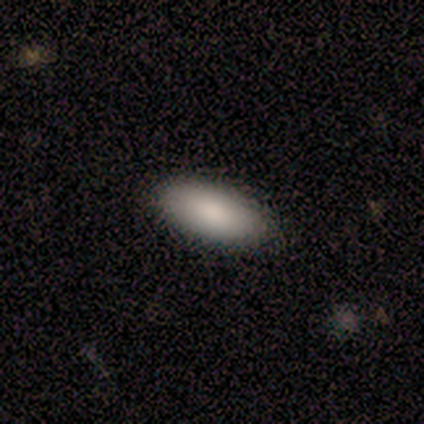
smooth-or-featured: smooth: 100% | featured or disk: 0% | star or artifact: 0%
  how-rounded: in between: 60% | round: 20% | cigar-shaped: 20%
  merging: none: 60% | minor disturbance: 20% | major disturbance: 20% | merger: 0%